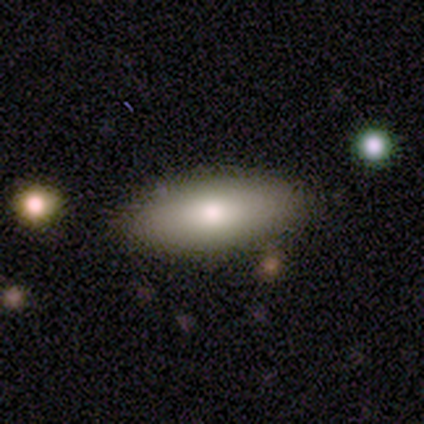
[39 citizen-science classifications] Smooth or featured?
  - smooth: 77% *
  - featured or disk: 18%
  - star or artifact: 5%
How rounded?
  - in between: 73% *
  - cigar-shaped: 23%
  - round: 3%
Merging?
  - none: 95% *
  - minor disturbance: 3%
  - major disturbance: 3%
  - merger: 0%